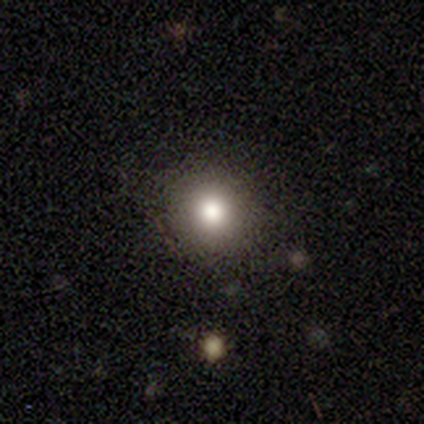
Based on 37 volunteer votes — Smooth or featured: smooth — 73% (star or artifact — 24%)
How rounded: round — 89% (in between — 11%)
Merging: none — 93% (minor disturbance — 7%)